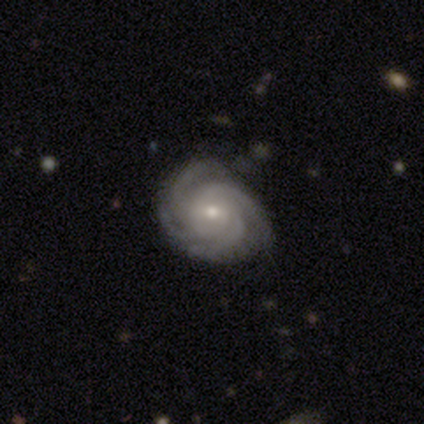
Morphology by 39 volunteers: Volunteers were most divided on "bar": no: 60%, weak: 37%, strong: 3%. More confident: edge-on disk — no (97%); spiral arms — yes (97%); smooth or featured — featured or disk (92%); merging — none (92%); bulge size — small (66%); spiral winding — tight (65%); spiral arm count — 4 (62%).